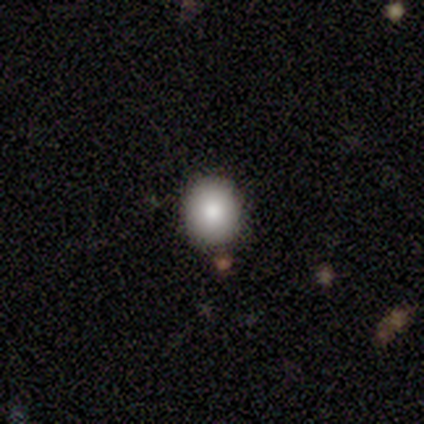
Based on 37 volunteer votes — smooth_or_featured: smooth (p=0.86) [alt: featured or disk p=0.14]
how_rounded: round (p=0.81) [alt: in between p=0.19]
merging: none (p=0.89) [alt: minor disturbance p=0.08]